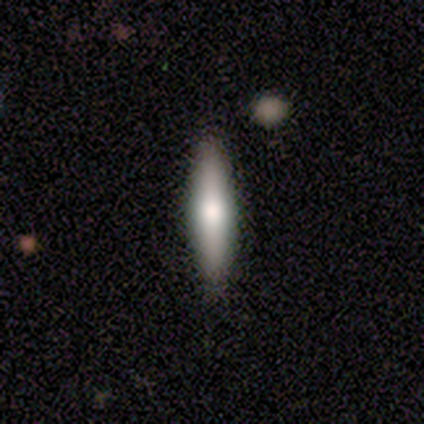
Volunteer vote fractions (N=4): This appears to be a featured or disk galaxy (75%) viewed edge-on (100%) with a rounded central bulge (100%). Merging: none (100%).